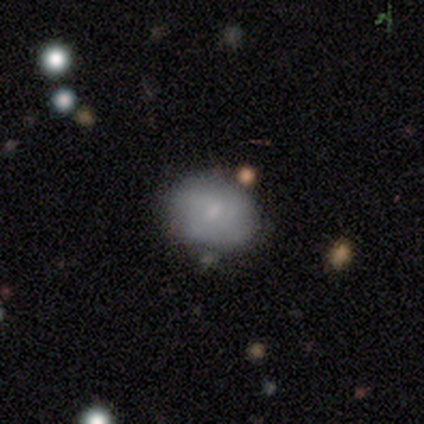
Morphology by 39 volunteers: smooth_or_featured: smooth (p=0.64) [alt: featured or disk p=0.31]
how_rounded: in between (p=0.64) [alt: round p=0.36]
merging: none (p=0.62) [alt: minor disturbance p=0.19]